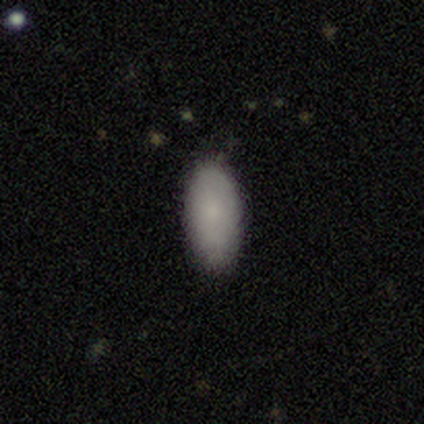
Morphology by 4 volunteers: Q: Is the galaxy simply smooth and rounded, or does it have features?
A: smooth — 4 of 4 (100%).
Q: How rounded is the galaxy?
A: in between — 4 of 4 (100%).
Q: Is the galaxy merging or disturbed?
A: none — 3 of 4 (75%).